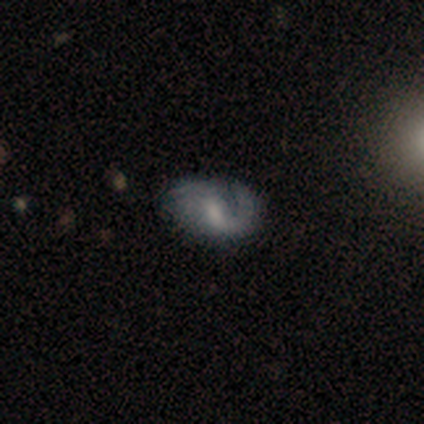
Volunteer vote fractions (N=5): Smooth or featured? featured or disk (100%)
Edge-on disk? no (100%)
Bar? weak (80%)
Spiral arms? yes (100%)
Spiral winding? medium (80%)
Spiral arm count? 1 (60%)
Bulge size? small (40%, tied with none)
Merging? none (80%)